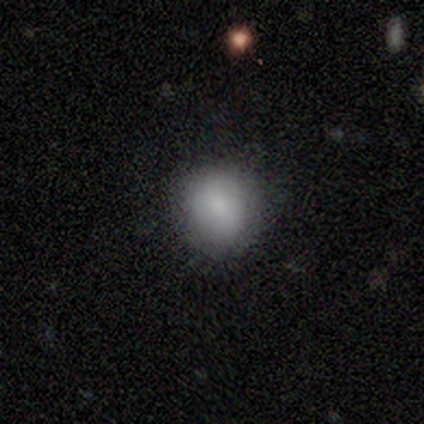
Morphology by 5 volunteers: A smooth galaxy with no disk features (80%) that is round (75%).

Vote fractions:
- Smooth or featured? smooth: 80% / star or artifact: 20% / featured or disk: 0%
- How rounded? round: 75% / in between: 25% / cigar-shaped: 0%
- Merging? none: 100% / minor disturbance: 0% / major disturbance: 0% / merger: 0%